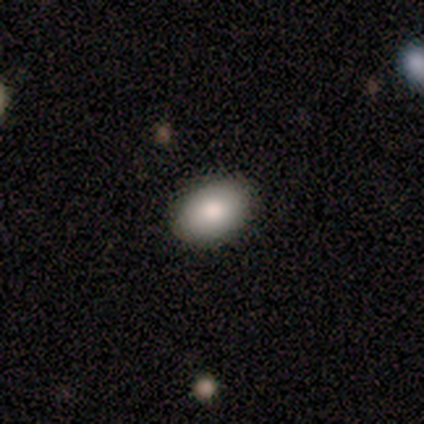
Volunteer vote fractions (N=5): Morphology: type=smooth (100%); roundness=in between (100%); merging=none (100%).